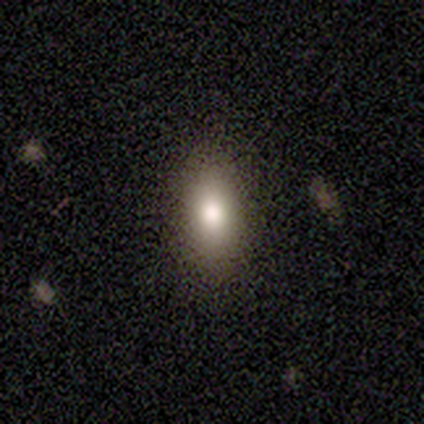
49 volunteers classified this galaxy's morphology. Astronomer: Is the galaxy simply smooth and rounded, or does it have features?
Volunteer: smooth — 88%.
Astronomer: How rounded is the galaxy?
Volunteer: in between — 81%.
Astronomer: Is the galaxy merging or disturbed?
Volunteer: none — 89%.